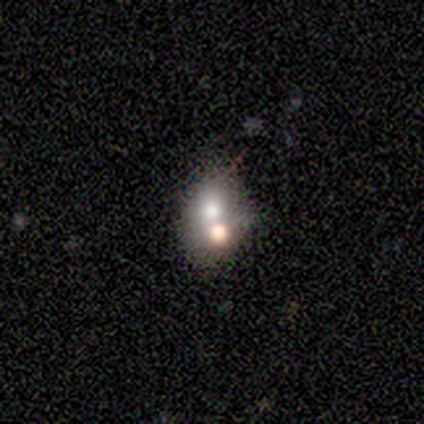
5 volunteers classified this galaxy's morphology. smooth-or-featured: smooth: 100% | featured or disk: 0% | star or artifact: 0%
  how-rounded: in between: 100% | round: 0% | cigar-shaped: 0%
  merging: none: 40% (tied) | merger: 40% (tied) | minor disturbance: 20% | major disturbance: 0%